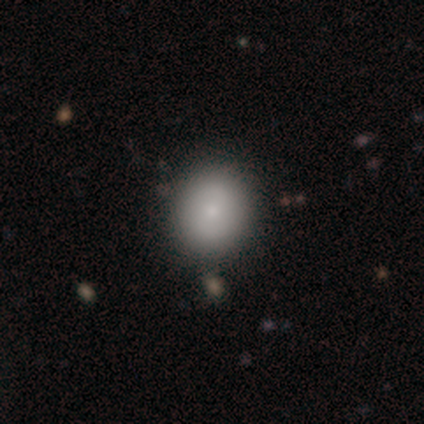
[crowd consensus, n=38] Smooth or featured? 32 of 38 (84%) said smooth. How rounded? 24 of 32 (75%) said round. Merging? 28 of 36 (78%) said none.